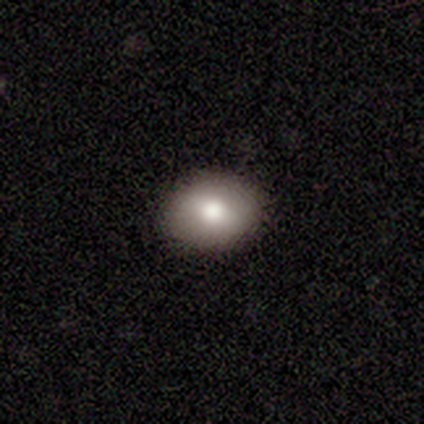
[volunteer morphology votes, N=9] Smooth or featured: smooth — 89% (featured or disk — 11%)
How rounded: in between — 75% (round — 25%)
Merging: none — 100%